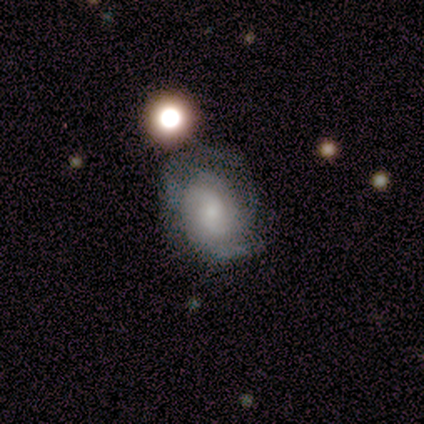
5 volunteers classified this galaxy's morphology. Smooth or featured: featured or disk — 80% (smooth — 20%)
Edge-on disk: no — 100%
Bar: weak — 50% (tied with no — 50%)
Spiral arms: yes — 100%
Spiral winding: medium — 75% (tight — 25%)
Spiral arm count: 2 — 25% (tied with 3 — 25%; more than 4 — 25%; can't tell — 25%)
Bulge size: small — 75% (moderate — 25%)
Merging: minor disturbance — 60% (none — 40%)